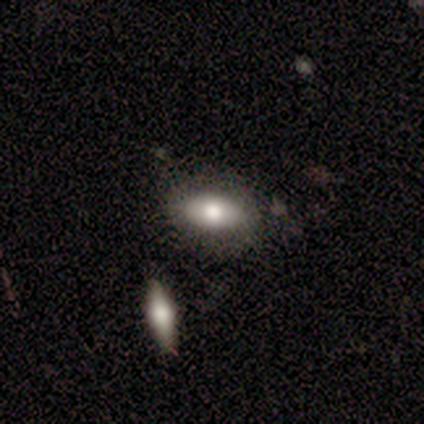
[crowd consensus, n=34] smooth 74%, featured or disk 24%, star or artifact 3%. Down the decision tree: how rounded — in between (92%); merging — none (73%).